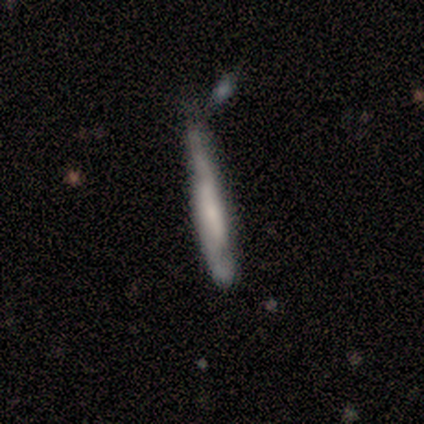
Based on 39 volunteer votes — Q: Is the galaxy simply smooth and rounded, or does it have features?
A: featured or disk — 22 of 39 (56%).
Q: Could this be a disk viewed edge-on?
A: yes — 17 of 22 (77%).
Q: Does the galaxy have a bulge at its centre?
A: none — 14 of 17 (82%).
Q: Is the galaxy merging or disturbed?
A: none — 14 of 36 (39%).